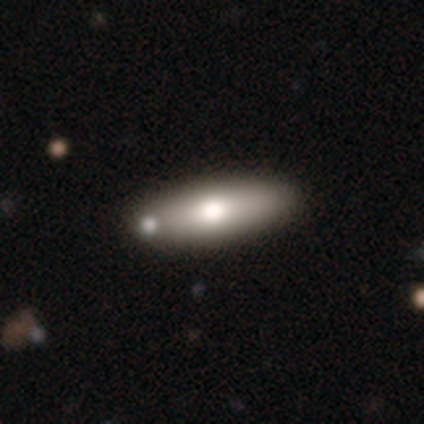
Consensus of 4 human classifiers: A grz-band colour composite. It shows a smooth galaxy with no disk features (75%) that is in between round and cigar-shaped (67%). Merging: none (50%).